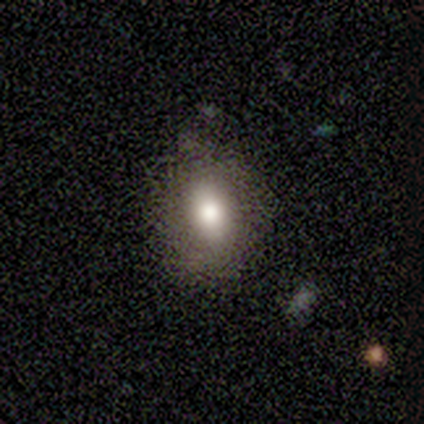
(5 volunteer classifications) A smooth galaxy with no disk features (80%) that is in between round and cigar-shaped (75%).

Vote fractions:
- Smooth or featured? smooth: 80% / star or artifact: 20% / featured or disk: 0%
- How rounded? in between: 75% / round: 25% / cigar-shaped: 0%
- Merging? none: 100% / minor disturbance: 0% / major disturbance: 0% / merger: 0%